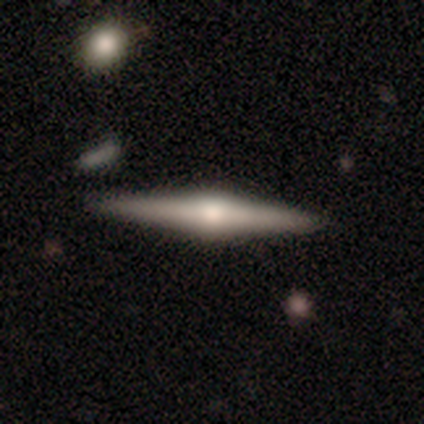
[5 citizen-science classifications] featured or disk 80%, smooth 20%, star or artifact 0%. Down the decision tree: edge-on disk — yes (100%); edge-on bulge — rounded (75%); merging — none (100%).